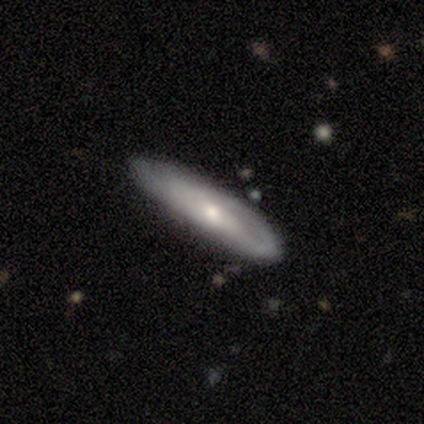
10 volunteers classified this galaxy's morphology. This is likely a smooth galaxy (60%). How rounded: clearly cigar-shaped (83%). Merging: clearly none (90%).